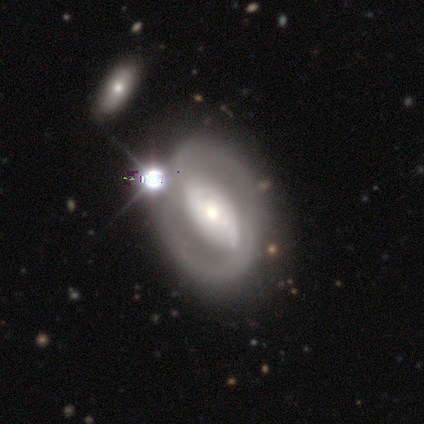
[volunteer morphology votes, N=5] Smooth or featured? 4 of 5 (80%) said featured or disk. Edge-on disk? 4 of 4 (100%) said no. Bar? 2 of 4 (50%) said strong. Spiral arms? 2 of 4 (50%, tied with no) said yes. Spiral winding? 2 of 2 (100%) said tight. Spiral arm count? 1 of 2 (50%, tied with can't tell) said 2. Bulge size? 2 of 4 (50%, tied with moderate) said large. Merging? 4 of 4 (100%) said none.